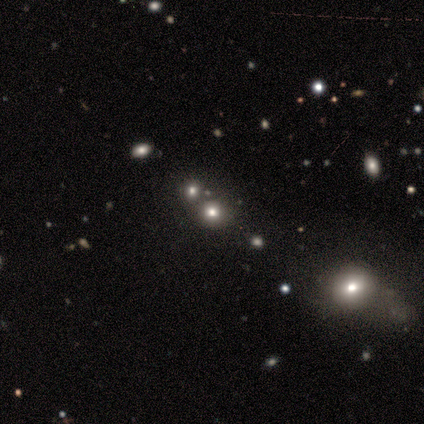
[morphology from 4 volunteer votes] Smooth or featured? star or artifact (75%)